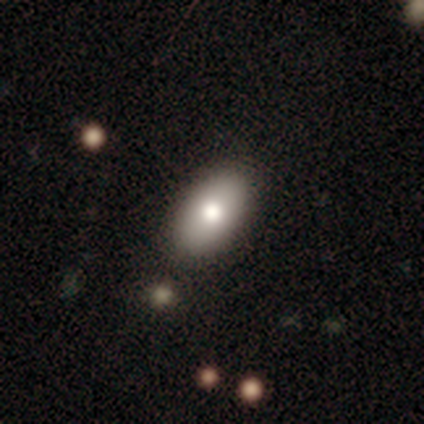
Q: Smooth or featured?
A: smooth (100%)
Q: How rounded?
A: in between (80%); runner-up: cigar-shaped (20%)
Q: Merging?
A: none (80%); runner-up: minor disturbance (20%)